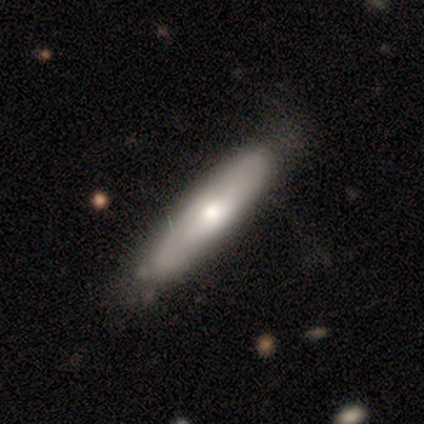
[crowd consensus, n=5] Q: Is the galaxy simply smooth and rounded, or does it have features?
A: smooth — 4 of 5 (80%).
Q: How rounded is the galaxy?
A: cigar-shaped — 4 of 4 (100%).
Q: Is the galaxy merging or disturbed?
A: none — 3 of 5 (60%).